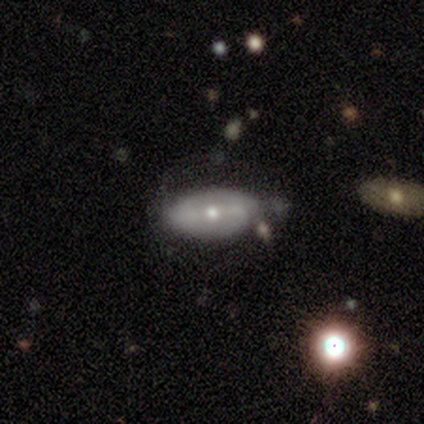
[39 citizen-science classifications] Overall: featured or disk (59%; smooth 36%). Edge-on disk: no (91%). Bar: strong (33%, tied with weak and no). Spiral arms: no (57%; yes 43%). Bulge size: moderate (57%; small 43%). Merging: none (51%; minor disturbance 24%).